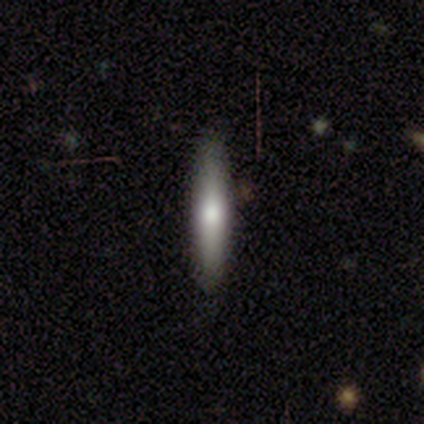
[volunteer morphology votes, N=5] type=smooth (60%); roundness=cigar-shaped (100%); merging=none (75%).